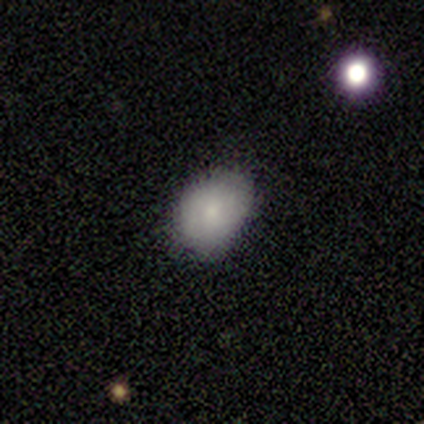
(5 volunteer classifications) Smooth or featured?
  - smooth: 80% *
  - featured or disk: 20%
  - star or artifact: 0%
How rounded?
  - in between: 75% *
  - round: 25%
  - cigar-shaped: 0%
Merging?
  - none: 100% *
  - minor disturbance: 0%
  - major disturbance: 0%
  - merger: 0%